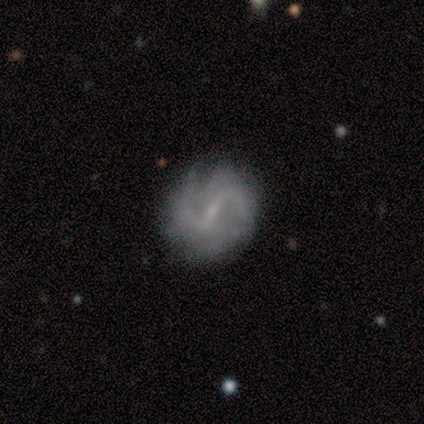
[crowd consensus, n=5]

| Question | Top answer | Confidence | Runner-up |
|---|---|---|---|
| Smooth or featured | featured or disk | 100% | — |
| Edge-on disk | no | 100% | — |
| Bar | weak | 60% | strong (40%) |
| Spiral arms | yes | 80% | no (20%) |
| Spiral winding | medium | 75% | tight (25%) |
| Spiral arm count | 2 | 50% | tied: can't tell (50%) |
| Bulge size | small | 40% | tied: none (40%) |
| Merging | none | 80% | minor disturbance (20%) |